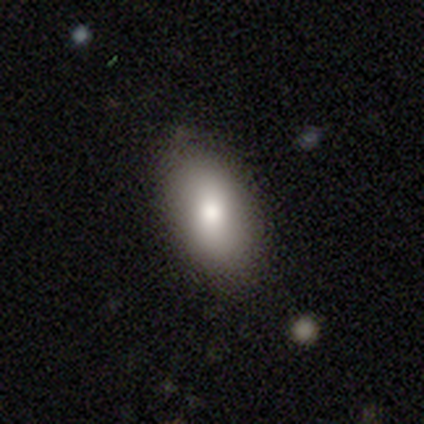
Overall: smooth (72%). How rounded: in between (82%). Merging: none (89%).